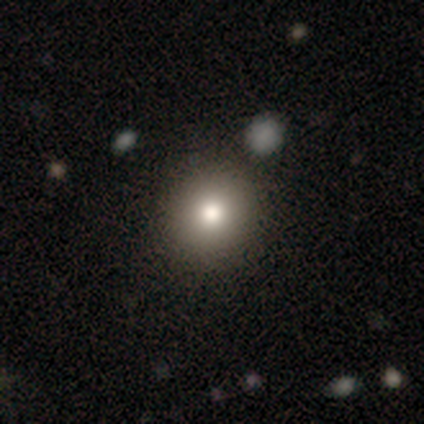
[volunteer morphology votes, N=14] type=smooth (86%); roundness=round (100%); merging=none (100%).